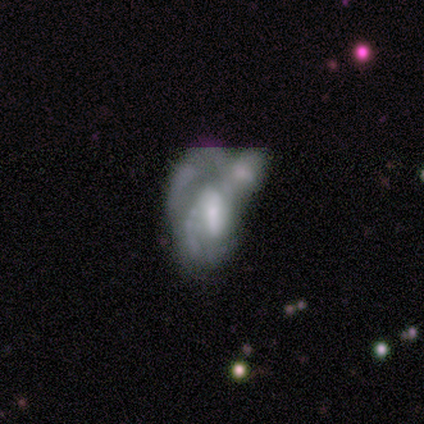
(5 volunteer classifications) Smooth or featured?
  - featured or disk: 60% *
  - smooth: 40%
  - star or artifact: 0%
Edge-on disk?
  - no: 100% *
  - yes: 0%
Bar?
  - weak: 67% *
  - no: 33%
  - strong: 0%
Spiral arms?
  - yes: 67% *
  - no: 33%
Spiral winding?
  - loose: 100% *
  - tight: 0%
  - medium: 0%
Spiral arm count?
  - 1: 50% * (tied)
  - 2: 50% * (tied)
  - 3: 0%
  - 4: 0%
  - more than 4: 0%
  - can't tell: 0%
Bulge size?
  - moderate: 100% *
  - dominant: 0%
  - large: 0%
  - small: 0%
  - none: 0%
Merging?
  - major disturbance: 60% *
  - merger: 40%
  - none: 0%
  - minor disturbance: 0%